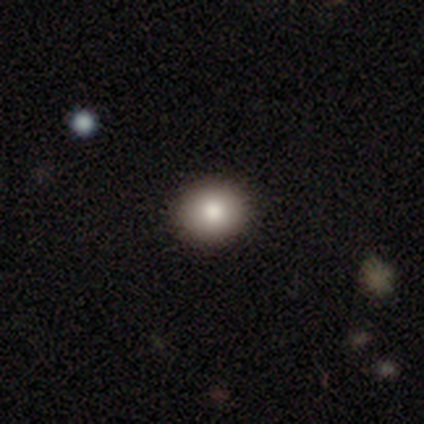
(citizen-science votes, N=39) This appears to be a smooth galaxy with no disk features (77%) that is round (77%). Merging: none (97%).